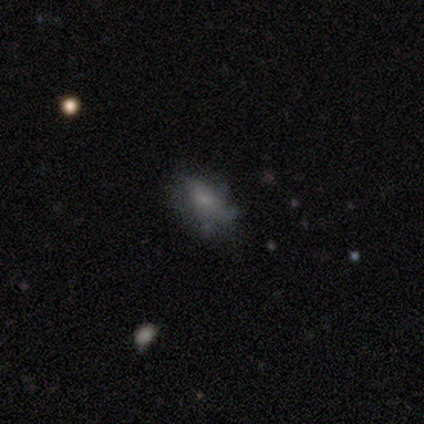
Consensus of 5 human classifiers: A featured or disk galaxy (80%) with no bar (100%), no spiral arms (75%) and a large central bulge (25%, tied with moderate, small and none).

Vote fractions:
- Smooth or featured? featured or disk: 80% / star or artifact: 20% / smooth: 0%
- Edge-on disk? no: 100% / yes: 0%
- Bar? no: 100% / strong: 0% / weak: 0%
- Spiral arms? no: 75% / yes: 25%
- Bulge size? large: 25% (tied) / moderate: 25% (tied) / small: 25% (tied) / none: 25% (tied) / dominant: 0%
- Merging? none: 75% / minor disturbance: 25% / major disturbance: 0% / merger: 0%